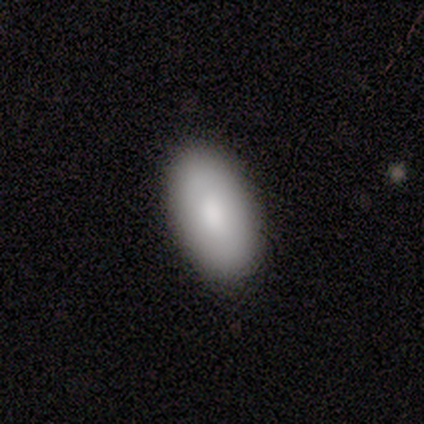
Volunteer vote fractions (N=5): Smooth or featured? 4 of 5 (80%) said smooth. How rounded? 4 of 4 (100%) said in between. Merging? 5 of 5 (100%) said none.